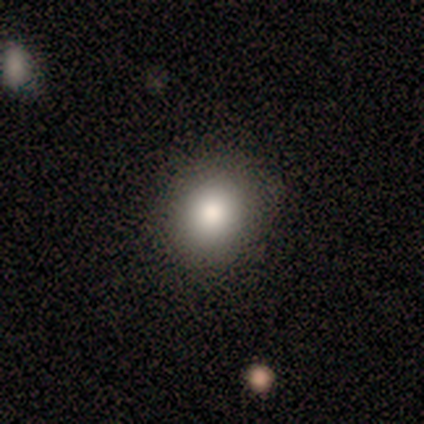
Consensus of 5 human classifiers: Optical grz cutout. It shows a smooth galaxy with no disk features (80%) that is round (75%). Merging: none (60%).